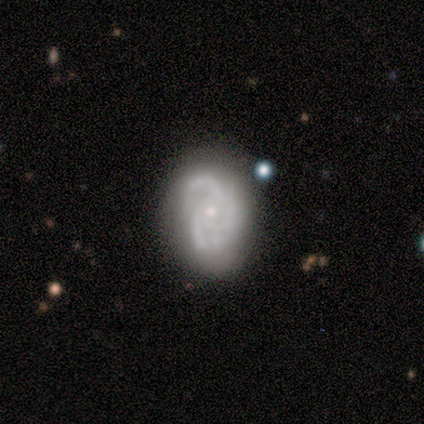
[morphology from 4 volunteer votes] Smooth or featured?
  - featured or disk: 100% *
  - smooth: 0%
  - star or artifact: 0%
Edge-on disk?
  - no: 100% *
  - yes: 0%
Bar?
  - no: 100% *
  - strong: 0%
  - weak: 0%
Spiral arms?
  - yes: 100% *
  - no: 0%
Spiral winding?
  - tight: 50% * (tied)
  - medium: 50% * (tied)
  - loose: 0%
Spiral arm count?
  - 2: 25% * (tied)
  - 3: 25% * (tied)
  - 4: 25% * (tied)
  - can't tell: 25% * (tied)
  - 1: 0%
  - more than 4: 0%
Bulge size?
  - small: 100% *
  - dominant: 0%
  - large: 0%
  - moderate: 0%
  - none: 0%
Merging?
  - none: 75% *
  - minor disturbance: 25%
  - major disturbance: 0%
  - merger: 0%